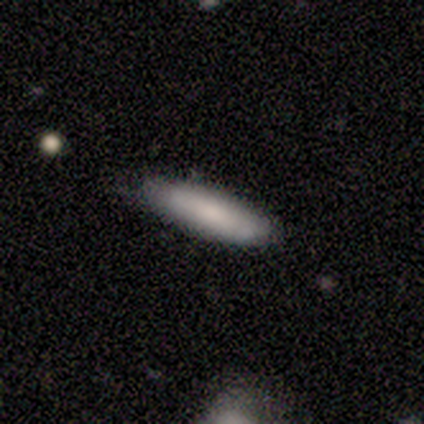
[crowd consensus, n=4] Volunteers were most divided on "how rounded": cigar-shaped: 75%, in between: 25%, round: 0%. More confident: smooth or featured — smooth (100%); merging — none (75%).